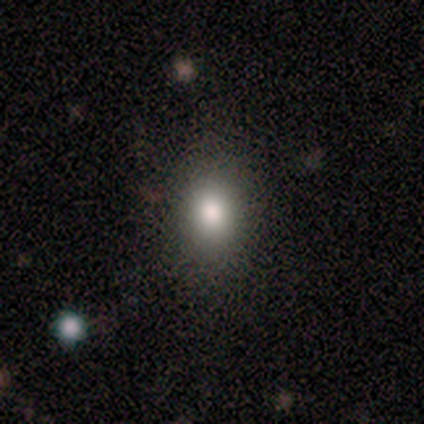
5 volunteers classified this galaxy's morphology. Volunteers were most divided on "how rounded": in between: 75%, round: 25%, cigar-shaped: 0%. More confident: smooth or featured — smooth (80%); merging — none (75%).